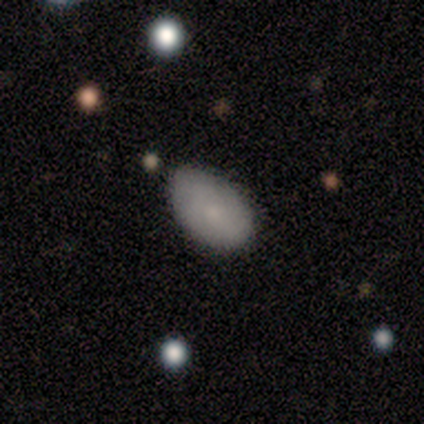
Overall: featured or disk (100%). Edge-on disk: no (100%). Bar: no (100%). Spiral arms: no (100%). Bulge size: small (100%). Merging: minor disturbance (100%).